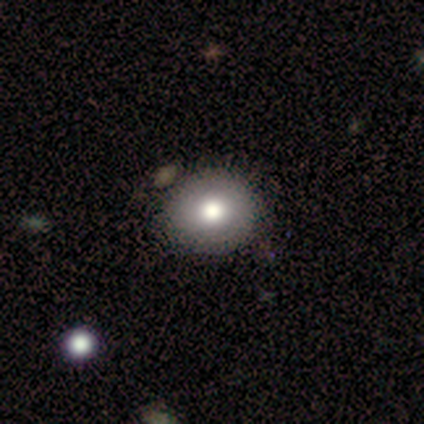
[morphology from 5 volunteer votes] A smooth galaxy with no disk features (80%) that is round (75%).

Vote fractions:
- Smooth or featured? smooth: 80% / featured or disk: 20% / star or artifact: 0%
- How rounded? round: 75% / in between: 25% / cigar-shaped: 0%
- Merging? none: 80% / minor disturbance: 20% / major disturbance: 0% / merger: 0%